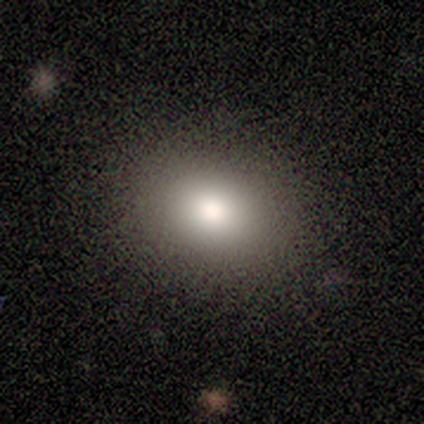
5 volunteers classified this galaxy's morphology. Volunteers were most divided on "smooth or featured": smooth: 60%, star or artifact: 40%, featured or disk: 0%. More confident: merging — none (100%); how rounded — in between (67%).